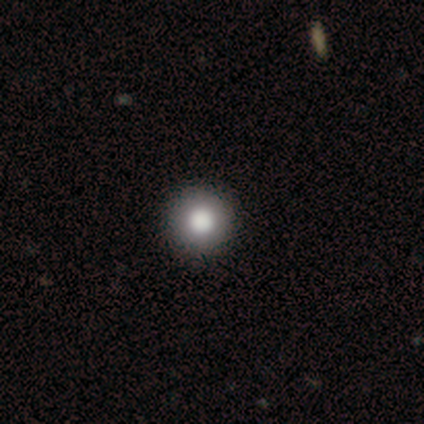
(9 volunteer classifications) smooth-or-featured: smooth: 67% | featured or disk: 22% | star or artifact: 11%
  how-rounded: round: 100% | in between: 0% | cigar-shaped: 0%
  merging: none: 100% | minor disturbance: 0% | major disturbance: 0% | merger: 0%